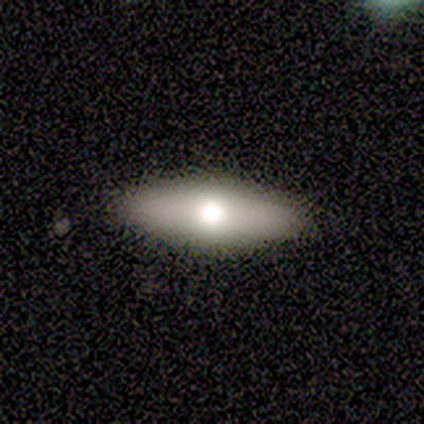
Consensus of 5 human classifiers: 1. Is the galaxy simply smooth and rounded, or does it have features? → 80% featured or disk, 20% smooth, 0% star or artifact.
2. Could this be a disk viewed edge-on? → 50% yes (tied), 50% no (tied).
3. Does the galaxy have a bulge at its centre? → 100% rounded, 0% boxy, 0% none.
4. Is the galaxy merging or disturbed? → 80% none, 20% major disturbance, 0% minor disturbance, 0% merger.